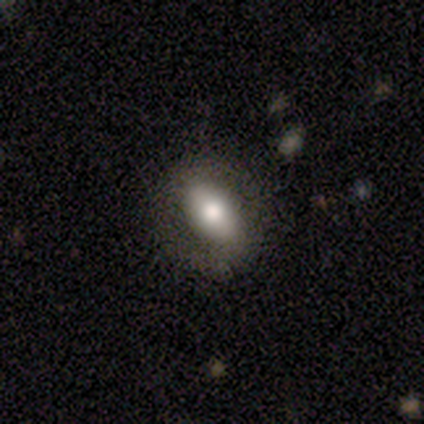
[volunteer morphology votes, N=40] Smooth or featured? smooth (62%)
How rounded? in between (68%)
Merging? none (88%)